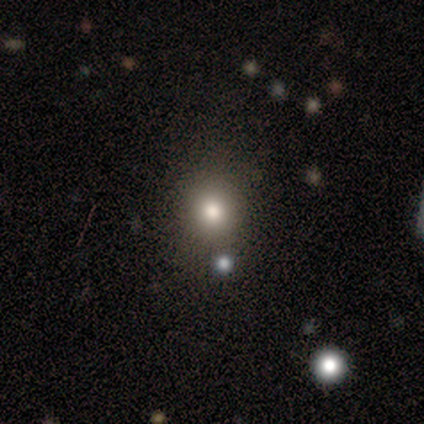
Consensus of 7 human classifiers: A smooth galaxy with no disk features (86%) that is round (100%).

Vote fractions:
- Smooth or featured? smooth: 86% / star or artifact: 14% / featured or disk: 0%
- How rounded? round: 100% / in between: 0% / cigar-shaped: 0%
- Merging? none: 100% / minor disturbance: 0% / major disturbance: 0% / merger: 0%